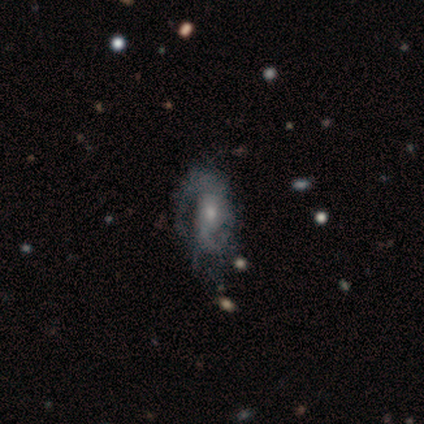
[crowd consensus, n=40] Q: Smooth or featured?
A: featured or disk (80%); runner-up: smooth (15%)
Q: Edge-on disk?
A: no (97%); runner-up: yes (3%)
Q: Bar?
A: no (74%); runner-up: weak (19%)
Q: Spiral arms?
A: yes (74%); runner-up: no (26%)
Q: Spiral winding?
A: medium (48%); runner-up: loose (30%)
Q: Spiral arm count?
A: 2 (65%); runner-up: can't tell (17%)
Q: Bulge size?
A: small (74%); runner-up: moderate (23%)
Q: Merging?
A: none (50%); runner-up: minor disturbance (26%)